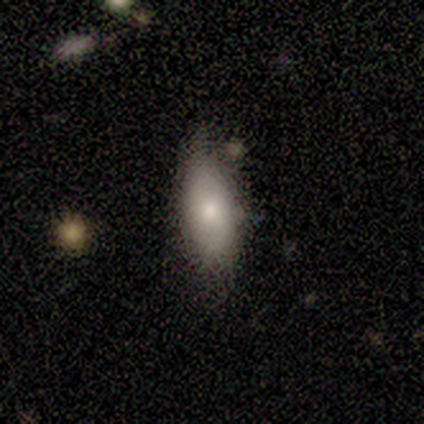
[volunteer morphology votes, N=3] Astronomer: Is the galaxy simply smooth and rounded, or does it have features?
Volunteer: smooth — 67%.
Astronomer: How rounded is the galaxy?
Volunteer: in between — 100%.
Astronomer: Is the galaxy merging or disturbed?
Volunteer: none — 67%.